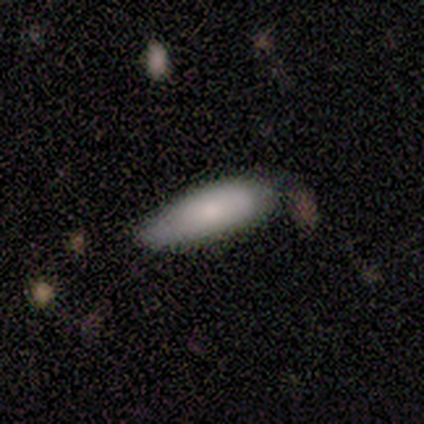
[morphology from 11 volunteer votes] Volunteers were most divided on "merging": none: 55%, minor disturbance: 36%, major disturbance: 9%, merger: 0%. More confident: smooth or featured — smooth (100%); how rounded — in between (64%).